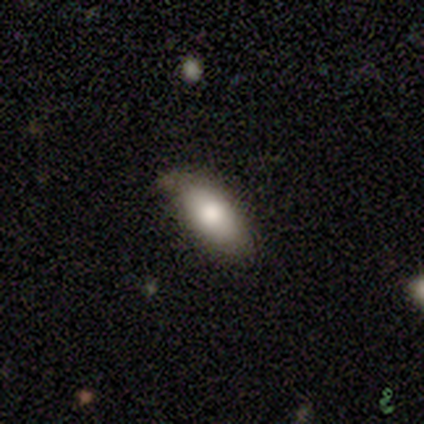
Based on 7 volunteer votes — smooth-or-featured: smooth: 100% | featured or disk: 0% | star or artifact: 0%
  how-rounded: in between: 100% | round: 0% | cigar-shaped: 0%
  merging: none: 71% | minor disturbance: 29% | major disturbance: 0% | merger: 0%